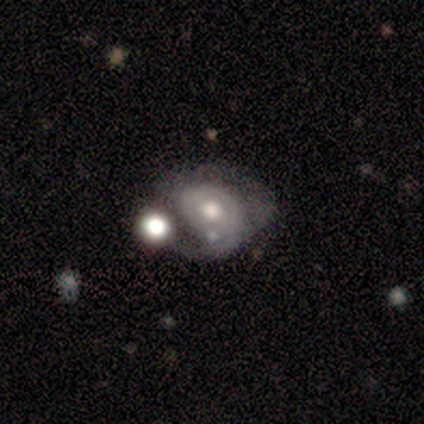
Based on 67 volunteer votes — Overall: featured or disk (75%). Edge-on disk: no (96%). Bar: no (62%; weak 31%). Spiral arms: yes (60%; no 40%). Spiral arm count: 2 (41%; 1 38%). Spiral winding: medium (52%; tight 38%). Bulge size: moderate (65%). Merging: merger (35%; major disturbance 32%).